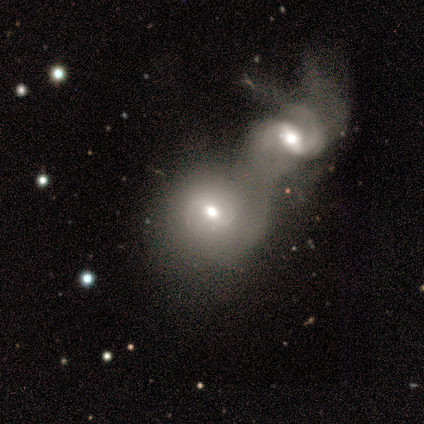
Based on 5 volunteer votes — Smooth or featured: smooth — 40% (tied with featured or disk — 40%)
How rounded: round — 50% (tied with in between — 50%)
Merging: merger — 100%